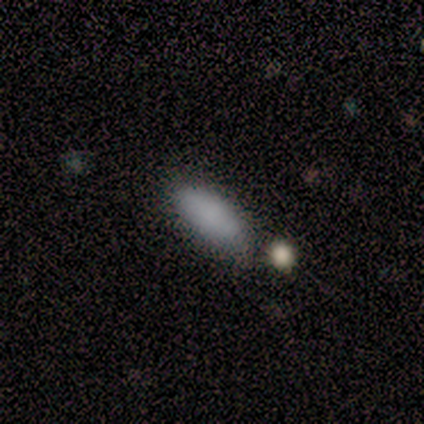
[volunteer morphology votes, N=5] A smooth galaxy with no disk features (80%) that is in between round and cigar-shaped (75%). Merging: none (100%).